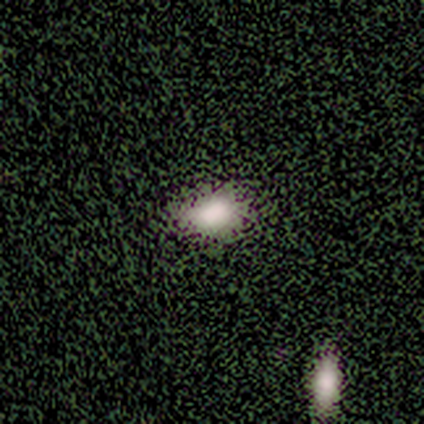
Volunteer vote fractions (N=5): A smooth galaxy with no disk features (100%) that is in between round and cigar-shaped (100%).

Vote fractions:
- Smooth or featured? smooth: 100% / featured or disk: 0% / star or artifact: 0%
- How rounded? in between: 100% / round: 0% / cigar-shaped: 0%
- Merging? none: 80% / minor disturbance: 20% / major disturbance: 0% / merger: 0%